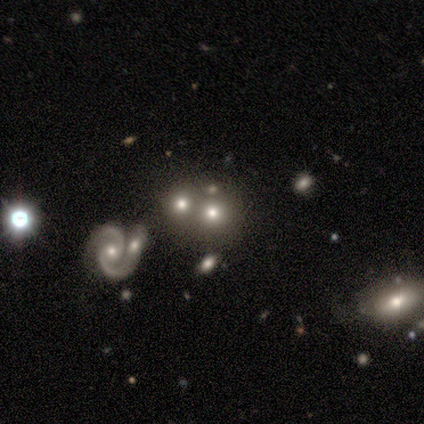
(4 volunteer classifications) This appears to be a star or artifact, not a galaxy (50%).